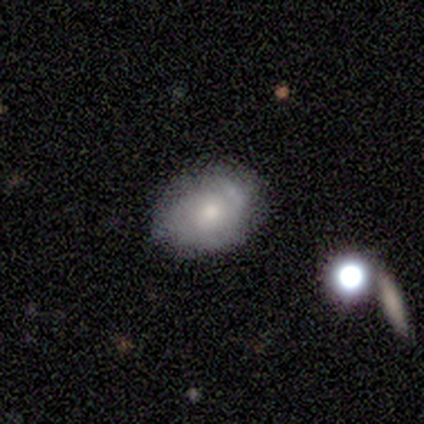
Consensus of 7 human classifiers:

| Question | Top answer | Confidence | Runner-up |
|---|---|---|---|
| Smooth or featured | featured or disk | 57% | smooth (29%) |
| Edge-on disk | no | 100% | — |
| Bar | no | 100% | — |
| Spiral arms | no | 75% | yes (25%) |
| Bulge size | moderate | 50% | tied: small (50%) |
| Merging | none | 50% | tied: minor disturbance (50%) |